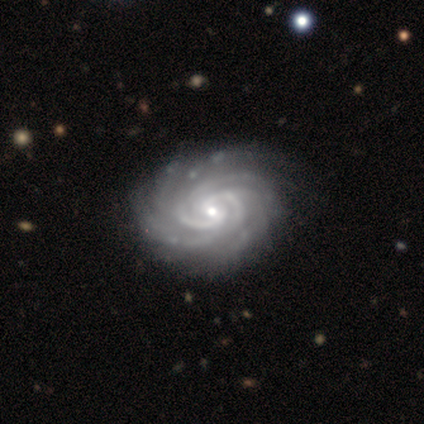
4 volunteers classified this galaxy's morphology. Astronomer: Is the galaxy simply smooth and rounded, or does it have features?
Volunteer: featured or disk — 100%.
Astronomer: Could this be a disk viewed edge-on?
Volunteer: no — 100%.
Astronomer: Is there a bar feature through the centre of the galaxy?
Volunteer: weak — 50%, tied with no at 50%.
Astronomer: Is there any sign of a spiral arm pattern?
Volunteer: yes — 100%.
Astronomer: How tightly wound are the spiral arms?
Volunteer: tight — 100%.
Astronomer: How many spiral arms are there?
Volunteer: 4 — 75%.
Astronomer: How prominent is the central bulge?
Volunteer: small — 75%.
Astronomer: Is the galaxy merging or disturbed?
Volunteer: none — 75%.